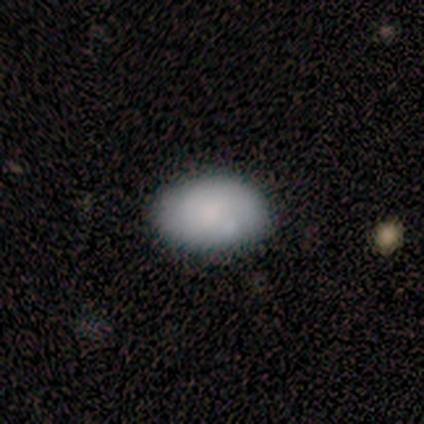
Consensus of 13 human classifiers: A smooth galaxy with no disk features (69%) that is in between round and cigar-shaped (78%).

Vote fractions:
- Smooth or featured? smooth: 69% / featured or disk: 15% / star or artifact: 15%
- How rounded? in between: 78% / round: 22% / cigar-shaped: 0%
- Merging? none: 73% / minor disturbance: 18% / major disturbance: 9% / merger: 0%